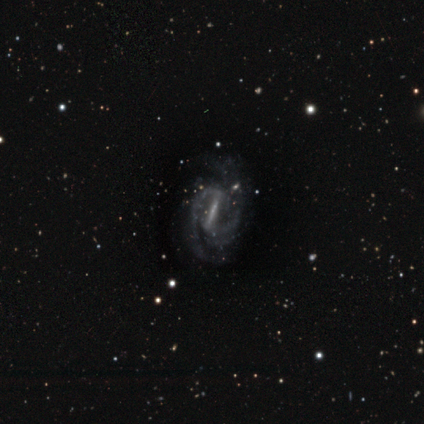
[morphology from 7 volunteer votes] smooth_or_featured: featured or disk (p=1.00)
disk_edge_on: no (p=1.00)
bar: strong (p=0.86) [alt: no p=0.14]
has_spiral_arms: yes (p=1.00)
spiral_winding: tight (p=0.57) [alt: medium p=0.29]
spiral_arm_count: 2 (p=0.86) [alt: can't tell p=0.14]
bulge_size: small (p=0.57) [alt: none p=0.43]
merging: none (p=0.57) [alt: minor disturbance p=0.29]